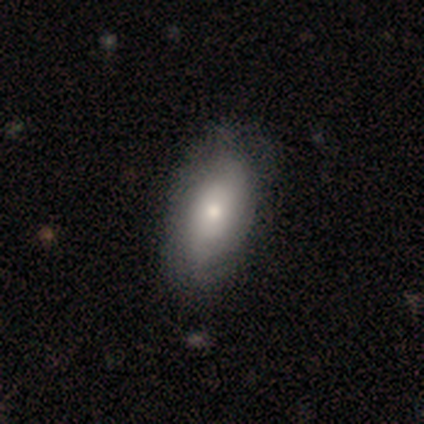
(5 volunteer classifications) Volunteers were most divided on "smooth or featured": smooth: 80%, star or artifact: 20%, featured or disk: 0%. More confident: how rounded — in between (100%); merging — none (100%).